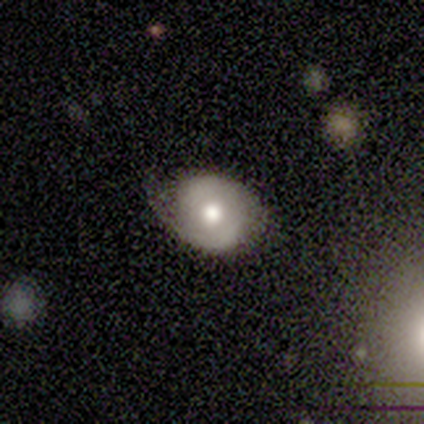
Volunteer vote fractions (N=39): smooth-or-featured: featured or disk: 64% | smooth: 33% | star or artifact: 3%
  disk-edge-on: no: 96% | yes: 4%
    bar: no: 79% | strong: 12% | weak: 8%
    has-spiral-arms: yes: 62% | no: 38%
      spiral-winding: tight: 67% | medium: 33% | loose: 0%
      spiral-arm-count: 2: 80% | can't tell: 13% | 1: 7% | 3: 0% | 4: 0% | more than 4: 0%
    bulge-size: moderate: 58% | large: 25% | dominant: 12% | small: 4% | none: 0%
  merging: none: 50% | minor disturbance: 45% | major disturbance: 3% | merger: 3%